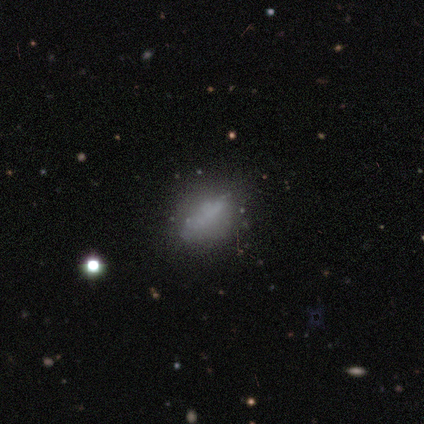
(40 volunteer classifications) A smooth galaxy with no disk features (60%) that is in between round and cigar-shaped (62%). Merging: none (38%).